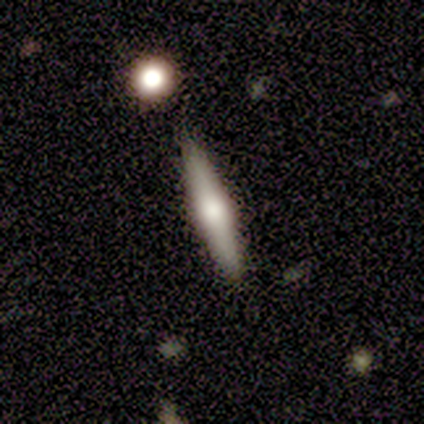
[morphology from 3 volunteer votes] Smooth or featured: featured or disk — 100%
Edge-on disk: yes — 100%
Edge-on bulge: rounded — 100%
Merging: none — 100%